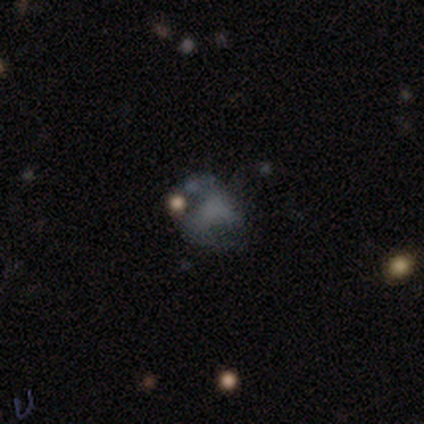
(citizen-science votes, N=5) Smooth or featured? featured or disk (60%)
Edge-on disk? no (100%)
Bar? no (67%)
Spiral arms? yes (67%)
Spiral winding? loose (100%)
Spiral arm count? 2 (50%, tied with can't tell)
Bulge size? moderate (67%)
Merging? major disturbance (50%)